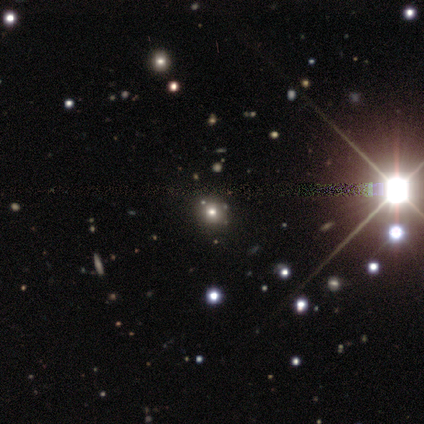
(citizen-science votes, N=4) Q: Smooth or featured?
A: smooth (50%); tied with: star or artifact (50%)
Q: How rounded?
A: round (100%)
Q: Merging?
A: none (100%)